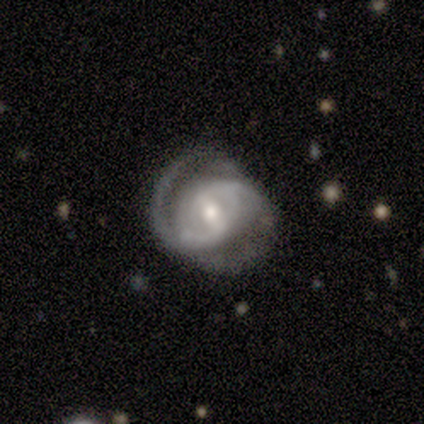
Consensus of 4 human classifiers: Smooth or featured? 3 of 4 (75%) said featured or disk. Edge-on disk? 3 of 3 (100%) said no. Bar? 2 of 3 (67%) said weak. Spiral arms? 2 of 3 (67%) said yes. Spiral winding? 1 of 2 (50%, tied with medium) said tight. Spiral arm count? 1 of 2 (50%, tied with 2) said 1. Bulge size? 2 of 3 (67%) said moderate. Merging? 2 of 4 (50%, tied with minor disturbance) said none.